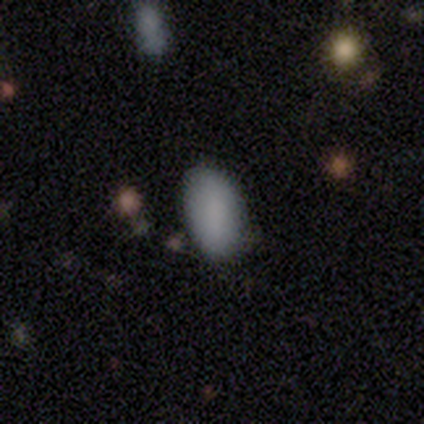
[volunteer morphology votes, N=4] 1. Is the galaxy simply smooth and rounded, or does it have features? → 100% smooth, 0% featured or disk, 0% star or artifact.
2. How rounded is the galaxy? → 100% in between, 0% round, 0% cigar-shaped.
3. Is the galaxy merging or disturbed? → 75% none, 25% merger, 0% minor disturbance, 0% major disturbance.